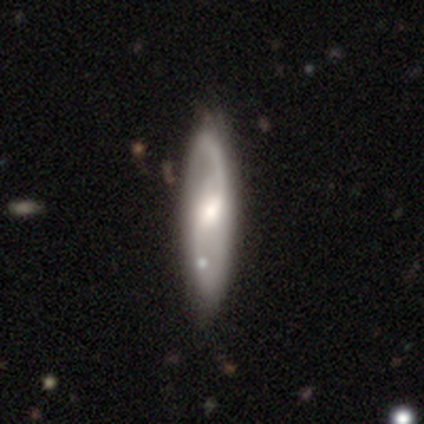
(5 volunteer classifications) Volunteers were most divided on "smooth or featured": featured or disk: 60%, smooth: 40%, star or artifact: 0%. More confident: edge-on disk — no (100%); spiral arms — yes (100%); spiral arm count — 2 (100%); merging — minor disturbance (80%); bar — weak (67%); spiral winding — medium (67%); bulge size — moderate (67%).